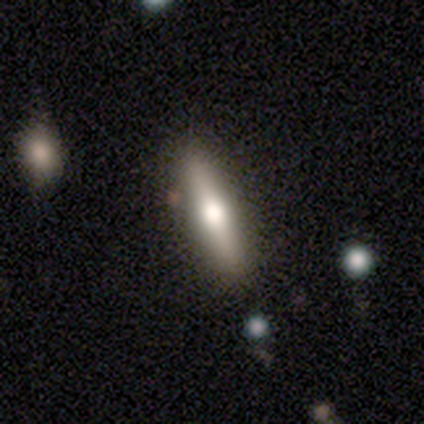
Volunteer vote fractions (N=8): smooth 50% (tied), featured or disk 50% (tied), star or artifact 0%. Down the decision tree: how rounded — cigar-shaped (100%); merging — none (100%).